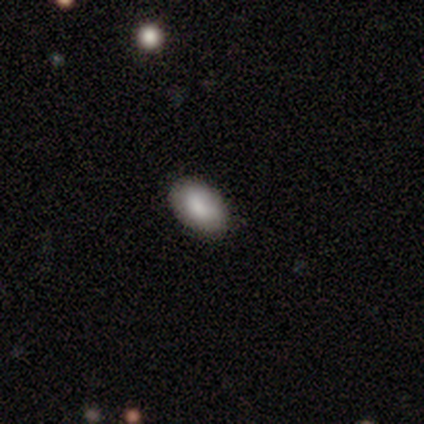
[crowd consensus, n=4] smooth_or_featured: smooth (p=0.75) [alt: featured or disk p=0.25]
how_rounded: in between (p=1.00)
merging: none (p=0.75) [alt: minor disturbance p=0.25]